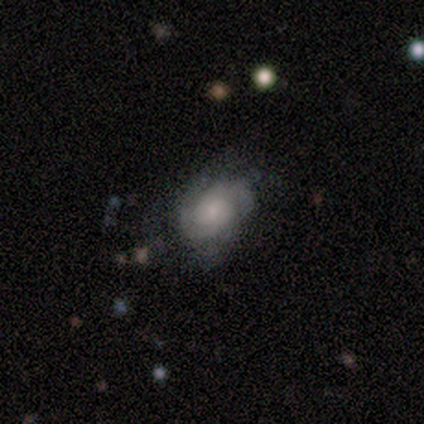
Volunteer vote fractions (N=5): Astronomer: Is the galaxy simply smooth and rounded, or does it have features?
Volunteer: featured or disk — 80%.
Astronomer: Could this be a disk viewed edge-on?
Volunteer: no — 100%.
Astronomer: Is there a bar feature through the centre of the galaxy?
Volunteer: no — 100%.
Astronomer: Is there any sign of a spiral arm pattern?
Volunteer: yes — 100%.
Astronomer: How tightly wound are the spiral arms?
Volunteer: medium — 75%.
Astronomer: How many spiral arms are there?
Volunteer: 2 — 75%.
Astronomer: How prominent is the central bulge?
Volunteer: moderate — 50%, tied with small at 50%.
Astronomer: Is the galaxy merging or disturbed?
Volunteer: none — 60% (runner-up: minor disturbance, 40%).